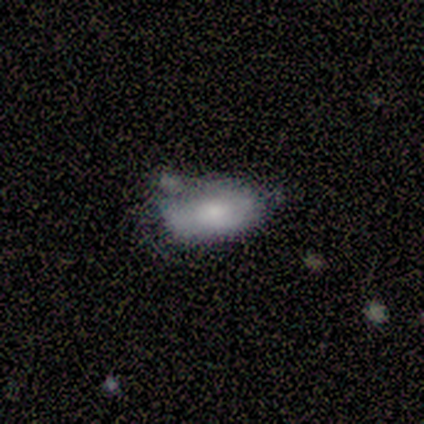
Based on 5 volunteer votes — Q: Smooth or featured?
A: smooth (80%); runner-up: star or artifact (20%)
Q: How rounded?
A: in between (75%); runner-up: cigar-shaped (25%)
Q: Merging?
A: minor disturbance (50%); runner-up: none (25%)